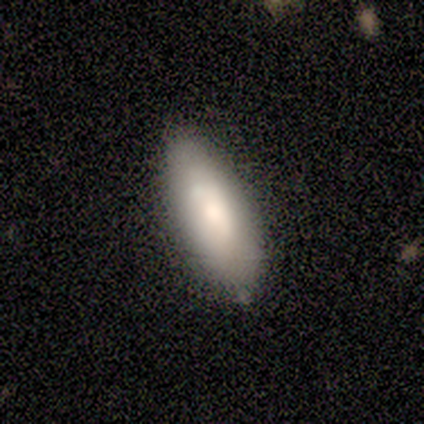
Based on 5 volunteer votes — smooth_or_featured: smooth (p=0.80) [alt: featured or disk p=0.20]
how_rounded: in between (p=0.50) [tied with: cigar-shaped p=0.50]
merging: none (p=0.60) [alt: minor disturbance p=0.40]